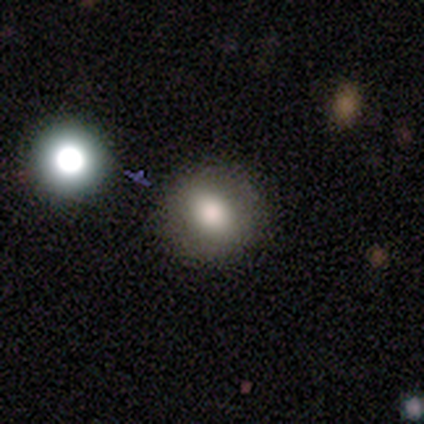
Morphology: type=smooth (62%); roundness=round (83%); merging=none (91%).